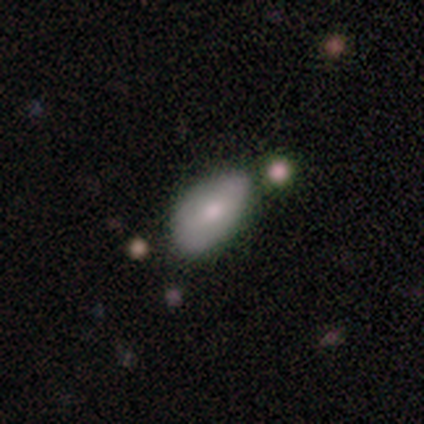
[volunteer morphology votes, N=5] smooth 80%, star or artifact 20%, featured or disk 0%. Down the decision tree: how rounded — in between (100%); merging — none (50%, tied with minor disturbance).